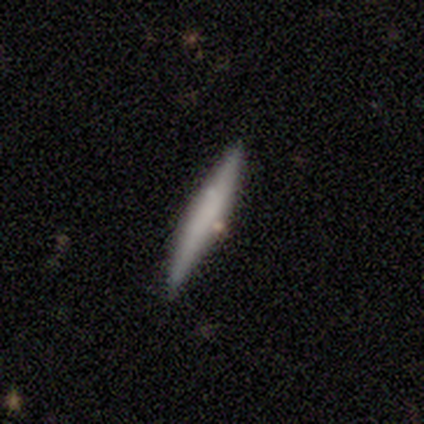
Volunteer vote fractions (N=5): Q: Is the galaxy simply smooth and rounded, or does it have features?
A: smooth — 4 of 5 (80%).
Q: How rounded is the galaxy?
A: cigar-shaped — 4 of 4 (100%).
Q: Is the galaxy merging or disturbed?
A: none — 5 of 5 (100%).